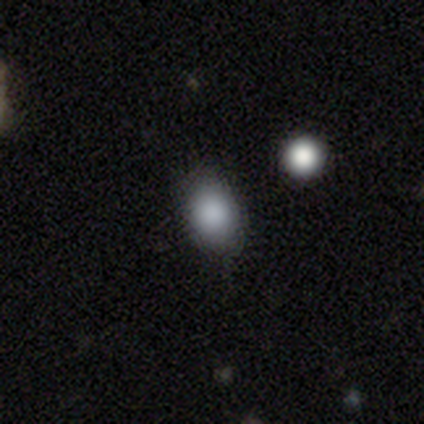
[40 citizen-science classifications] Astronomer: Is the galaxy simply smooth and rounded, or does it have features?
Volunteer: smooth — 95%.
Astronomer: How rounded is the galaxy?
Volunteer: in between — 71%.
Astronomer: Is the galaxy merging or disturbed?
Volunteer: none — 82%.